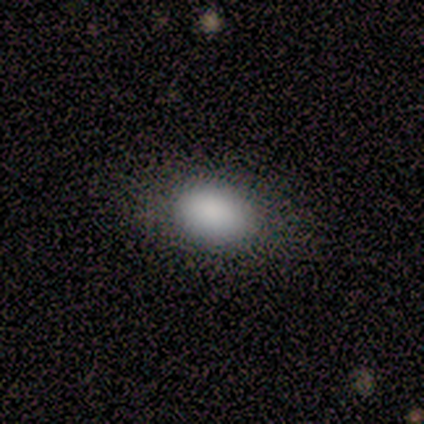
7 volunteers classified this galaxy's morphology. Q: Smooth or featured?
A: smooth (86%); runner-up: featured or disk (14%)
Q: How rounded?
A: in between (83%); runner-up: round (17%)
Q: Merging?
A: none (86%); runner-up: minor disturbance (14%)